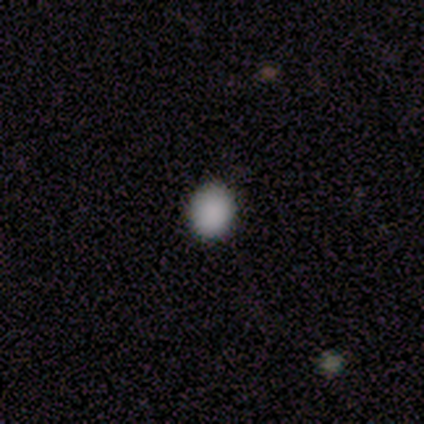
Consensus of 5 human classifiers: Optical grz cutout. It shows a smooth galaxy with no disk features (100%) that is round (80%). Merging: none (100%).